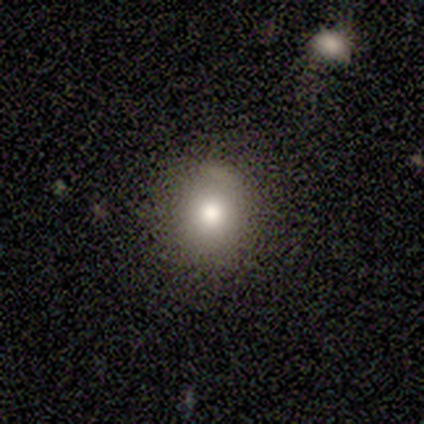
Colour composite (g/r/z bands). It shows a smooth galaxy with no disk features (60%) that is round (100%). Merging: none (100%).